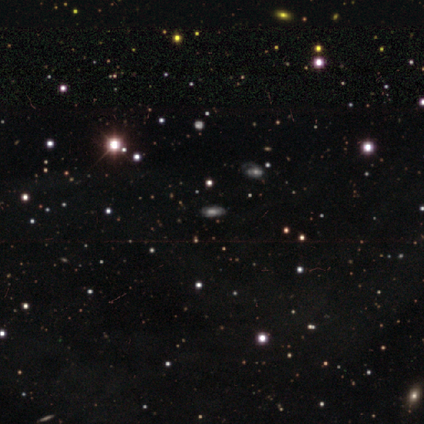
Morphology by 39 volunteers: Volunteers were most divided on "smooth or featured": star or artifact: 49%, smooth: 26%, featured or disk: 26%.